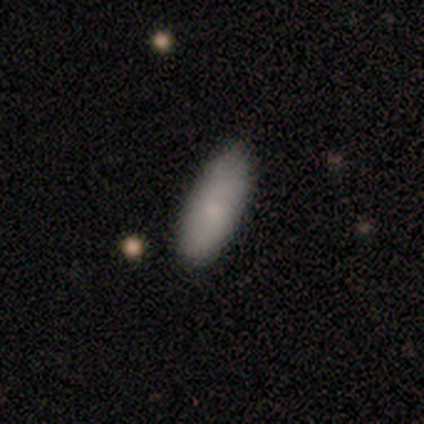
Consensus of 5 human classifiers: smooth-or-featured: smooth: 80% | featured or disk: 20% | star or artifact: 0%
  how-rounded: cigar-shaped: 75% | in between: 25% | round: 0%
  merging: none: 60% | minor disturbance: 40% | major disturbance: 0% | merger: 0%